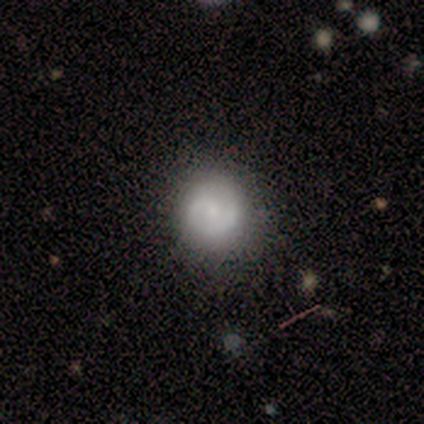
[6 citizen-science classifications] Volunteers were most divided on "merging": none: 67%, minor disturbance: 33%, major disturbance: 0%, merger: 0%. More confident: smooth or featured — smooth (83%); how rounded — round (80%).